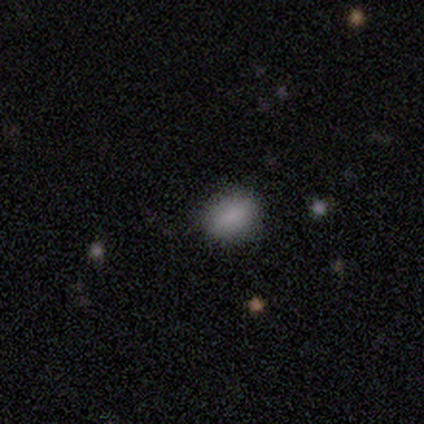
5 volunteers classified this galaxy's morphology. This appears to be a smooth galaxy with no disk features (80%) that is in between round and cigar-shaped (75%). Merging: none (100%).